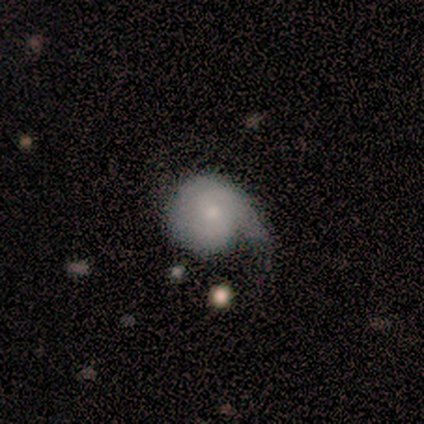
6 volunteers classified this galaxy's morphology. Overall: featured or disk (67%; smooth 33%). Edge-on disk: no (100%). Bar: weak (50%, tied with no). Spiral arms: yes (75%). Spiral arm count: 3 (67%; 1 33%). Spiral winding: medium (67%; loose 33%). Bulge size: small (75%). Merging: none (33%, tied with major disturbance).